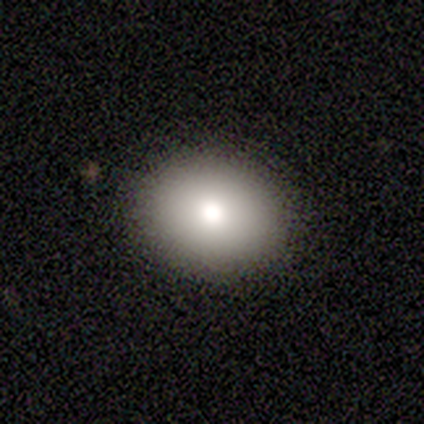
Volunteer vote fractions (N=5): smooth_or_featured: smooth (p=1.00)
how_rounded: in between (p=0.60) [alt: round p=0.40]
merging: none (p=1.00)